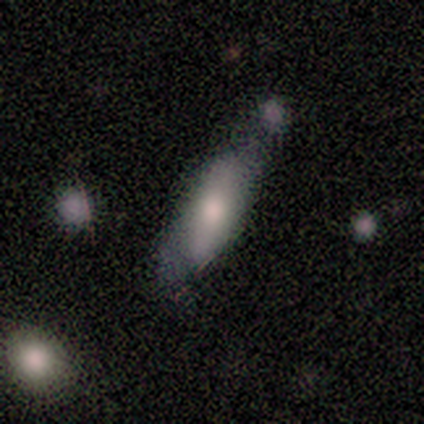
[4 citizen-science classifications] smooth 50% (tied), featured or disk 50% (tied), star or artifact 0%. Down the decision tree: how rounded — in between (50%, tied with cigar-shaped); merging — minor disturbance (50%).